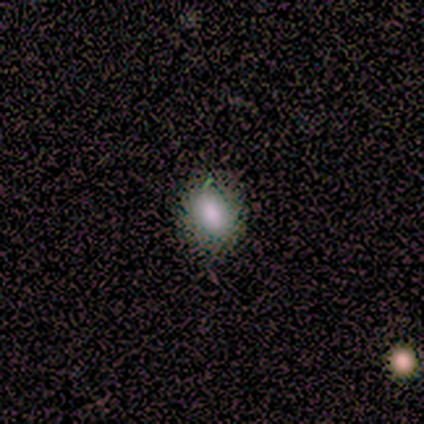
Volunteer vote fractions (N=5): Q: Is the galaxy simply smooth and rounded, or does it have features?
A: smooth — 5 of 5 (100%).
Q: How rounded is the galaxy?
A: round — 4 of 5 (80%).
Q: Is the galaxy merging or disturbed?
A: none — 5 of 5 (100%).